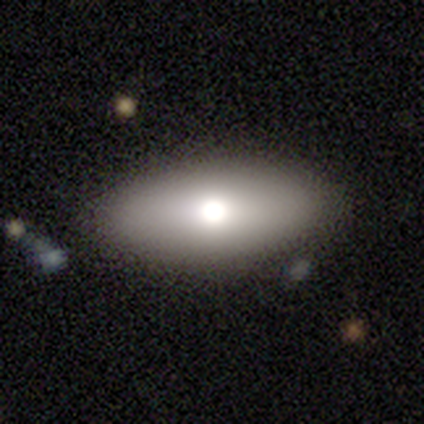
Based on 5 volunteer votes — Smooth or featured? 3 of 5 (60%) said smooth. How rounded? 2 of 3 (67%) said in between. Merging? 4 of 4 (100%) said none.